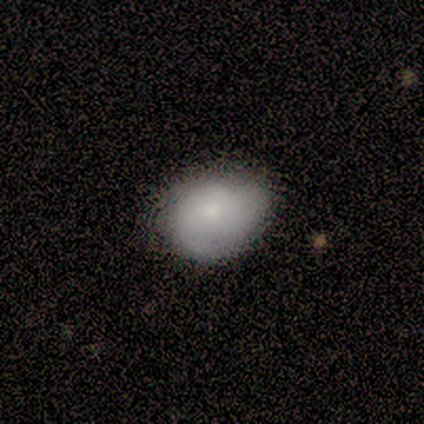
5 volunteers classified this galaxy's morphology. Smooth or featured? smooth (40%, tied with featured or disk)
How rounded? round (50%, tied with in between)
Merging? none (75%)